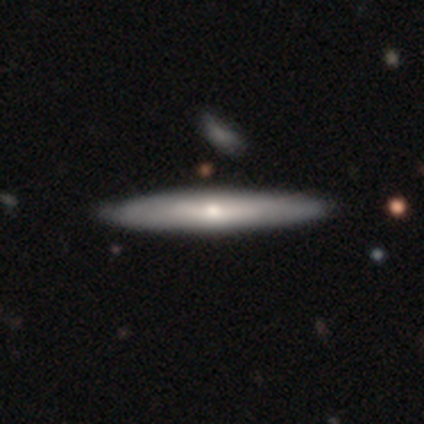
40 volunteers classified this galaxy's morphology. Smooth or featured? 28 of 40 (70%) said featured or disk. Edge-on disk? 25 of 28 (89%) said yes. Edge-on bulge? 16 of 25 (64%) said rounded. Merging? 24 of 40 (60%) said none.